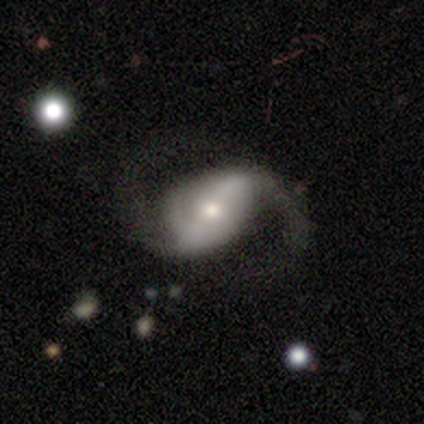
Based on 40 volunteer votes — This is clearly a featured or disk galaxy (82%). It is clearly not viewed edge-on (100%). Bar: possibly strong (48%). Spiral arm pattern: clearly yes (91%). Spiral arm count: clearly 2 (93%). Spiral winding: likely loose (73%). Central bulge: possibly small (55%). Merging: likely none (69%).